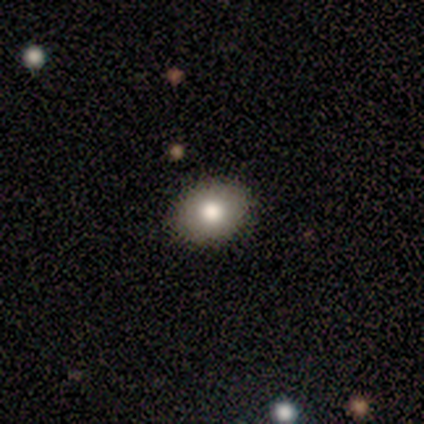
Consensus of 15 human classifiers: Q: Smooth or featured?
A: smooth (60%); runner-up: featured or disk (27%)
Q: How rounded?
A: round (67%); runner-up: in between (33%)
Q: Merging?
A: none (92%); runner-up: minor disturbance (8%)